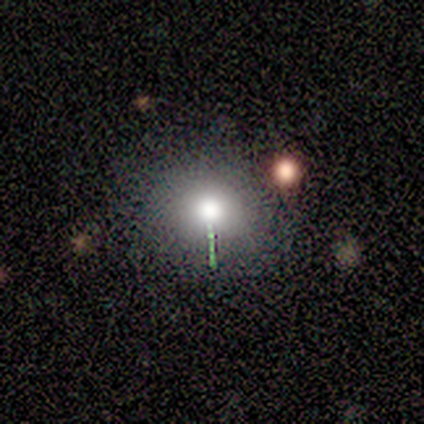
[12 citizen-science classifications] smooth 83%, star or artifact 17%, featured or disk 0%. Down the decision tree: how rounded — round (70%); merging — none (100%).